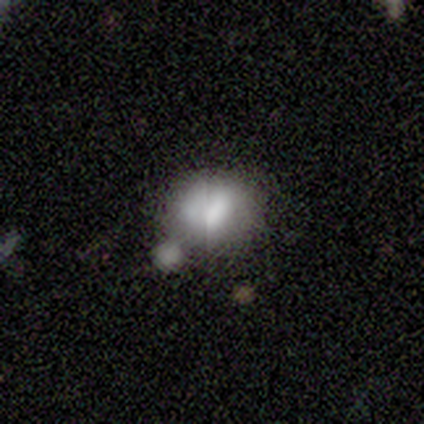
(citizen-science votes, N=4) Overall: smooth (75%). How rounded: round (100%). Merging: merger (50%; none 25%).